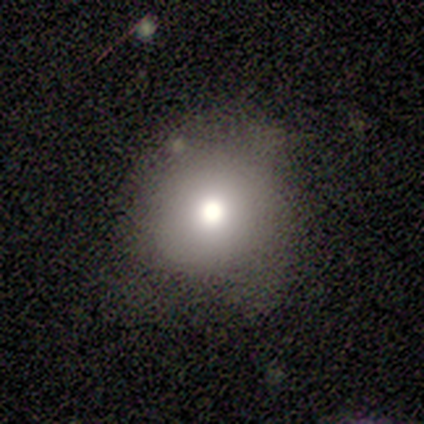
smooth_or_featured: smooth (p=0.76) [alt: featured or disk p=0.15]
how_rounded: round (p=0.94) [alt: in between p=0.06]
merging: none (p=0.59) [alt: minor disturbance p=0.32]